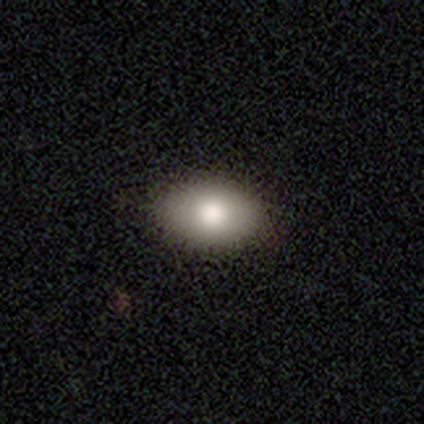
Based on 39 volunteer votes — Smooth or featured?
  - smooth: 97% *
  - star or artifact: 3%
  - featured or disk: 0%
How rounded?
  - in between: 97% *
  - round: 3%
  - cigar-shaped: 0%
Merging?
  - none: 74% *
  - minor disturbance: 5%
  - major disturbance: 0%
  - merger: 0%